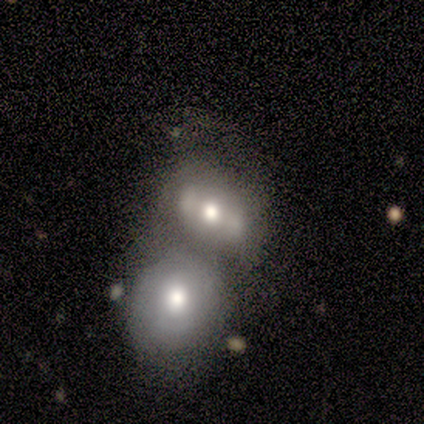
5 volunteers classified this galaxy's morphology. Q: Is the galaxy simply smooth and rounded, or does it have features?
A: smooth — 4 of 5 (80%).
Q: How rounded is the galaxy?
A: in between — 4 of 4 (100%).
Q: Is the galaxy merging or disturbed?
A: merger — 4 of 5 (80%).